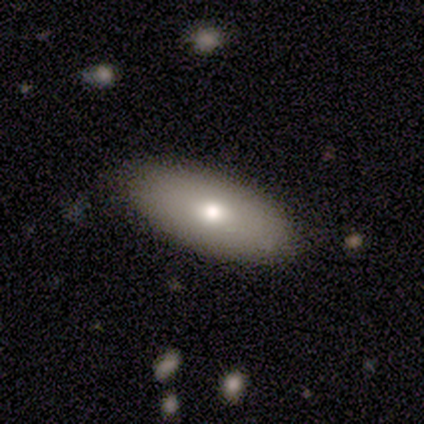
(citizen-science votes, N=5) Smooth or featured? smooth (80%)
How rounded? in between (75%)
Merging? none (80%)